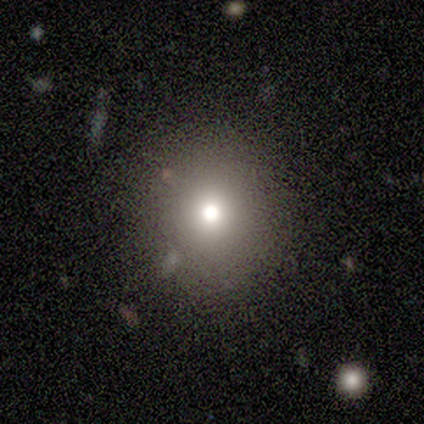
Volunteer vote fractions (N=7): This appears to be a smooth galaxy with no disk features (43%, tied with star or artifact) that is round (100%). Merging: none (75%).